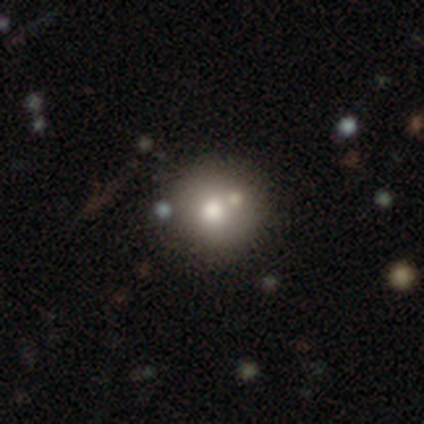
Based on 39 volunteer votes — This is likely a smooth galaxy (77%). How rounded: clearly round (93%). Merging: marginally none (44%).